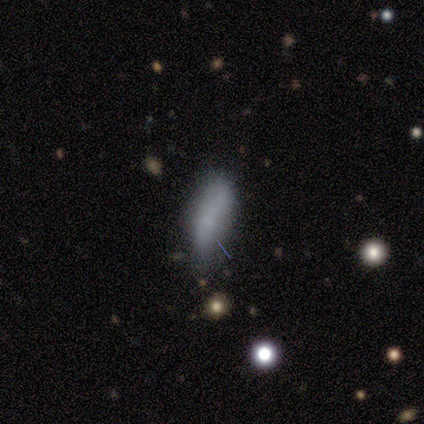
A smooth galaxy with no disk features (79%) that is in between round and cigar-shaped (73%). Merging: none (54%).